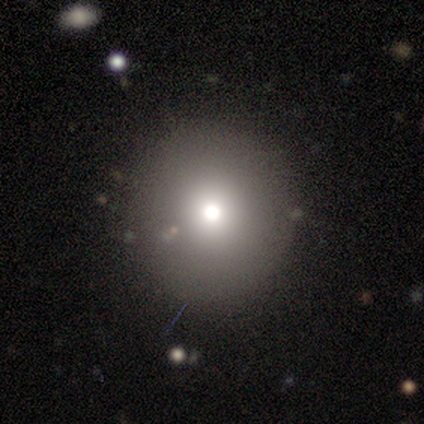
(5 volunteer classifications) Overall: smooth (80%). How rounded: round (100%). Merging: none (100%).